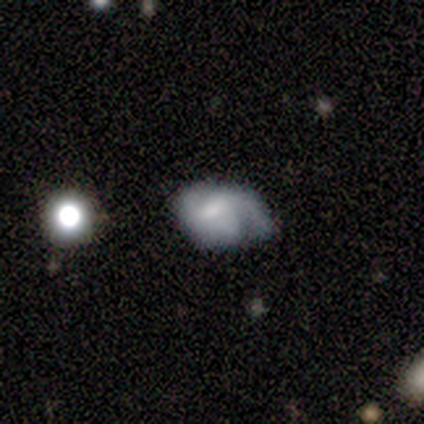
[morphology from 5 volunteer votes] This is likely a smooth galaxy (60%). How rounded: likely in between (67%). Merging: marginally minor disturbance (40%, tied with major disturbance).